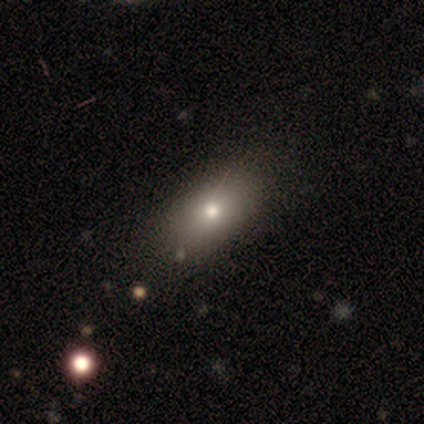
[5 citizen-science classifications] A smooth galaxy with no disk features (100%) that is in between round and cigar-shaped (80%). Merging: none (100%).